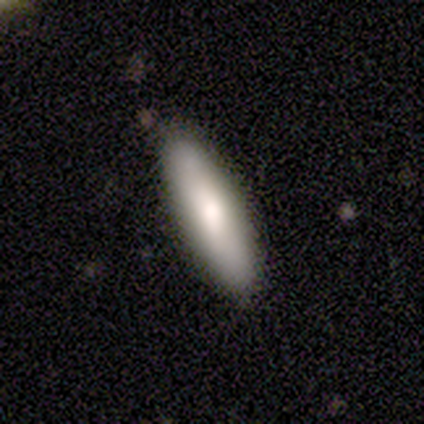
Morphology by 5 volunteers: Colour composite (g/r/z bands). It shows a smooth galaxy with no disk features (100%) that is cigar-shaped (60%). Merging: none (100%).